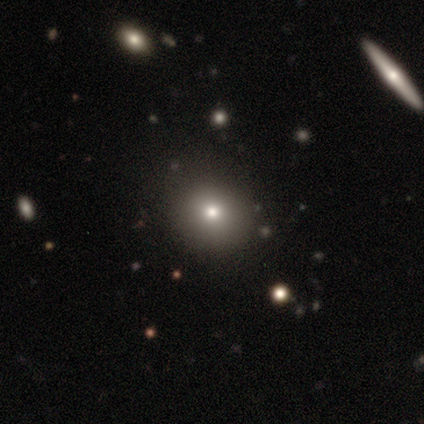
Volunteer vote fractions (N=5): A smooth galaxy with no disk features (100%) that is round (60%).

Vote fractions:
- Smooth or featured? smooth: 100% / featured or disk: 0% / star or artifact: 0%
- How rounded? round: 60% / in between: 40% / cigar-shaped: 0%
- Merging? none: 60% / minor disturbance: 40% / major disturbance: 0% / merger: 0%